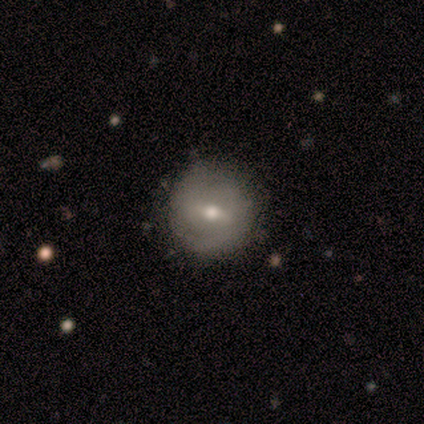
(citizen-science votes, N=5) A smooth galaxy with no disk features (80%) that is round (100%). Merging: none (60%).